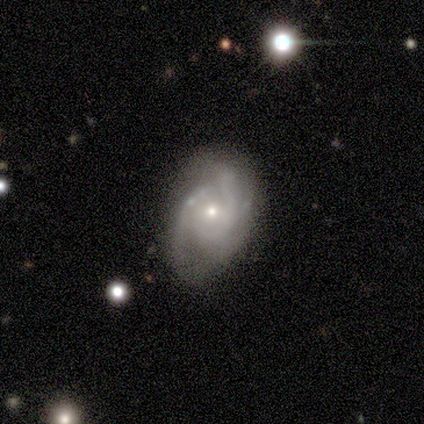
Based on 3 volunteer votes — featured or disk 100%, smooth 0%, star or artifact 0%. Down the decision tree: edge-on disk — no (100%); bar — no (67%); spiral arms — yes (100%); spiral arm count — 2 (100%); spiral winding — medium (67%); bulge size — small (67%); merging — none (100%).